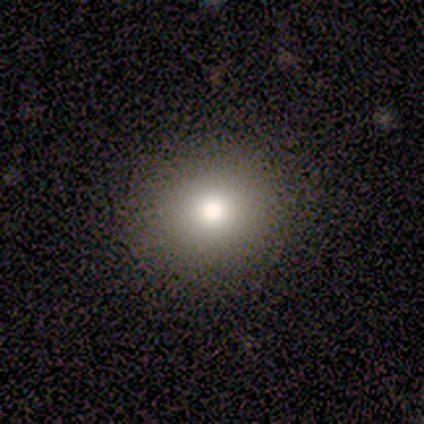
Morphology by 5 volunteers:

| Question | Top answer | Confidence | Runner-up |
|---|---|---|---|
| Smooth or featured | smooth | 80% | star or artifact (20%) |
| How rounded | round | 100% | — |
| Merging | none | 100% | — |